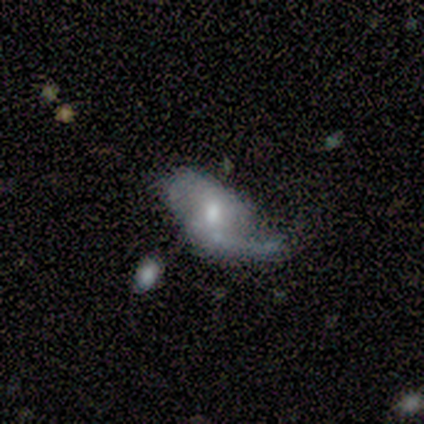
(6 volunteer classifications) Q: Smooth or featured?
A: featured or disk (100%)
Q: Edge-on disk?
A: no (100%)
Q: Bar?
A: weak (67%); runner-up: no (33%)
Q: Spiral arms?
A: yes (67%); runner-up: no (33%)
Q: Spiral winding?
A: medium (50%); tied with: loose (50%)
Q: Spiral arm count?
A: 2 (75%); runner-up: 1 (25%)
Q: Bulge size?
A: moderate (50%); tied with: small (50%)
Q: Merging?
A: none (33%); tied with: minor disturbance (33%); major disturbance (33%)